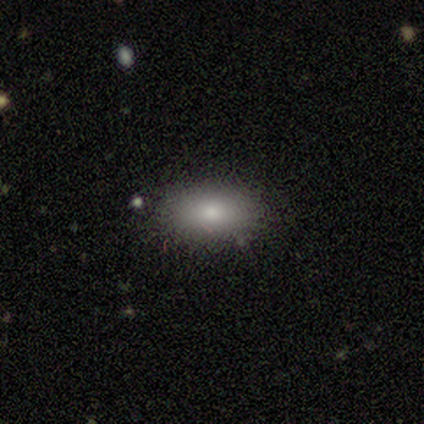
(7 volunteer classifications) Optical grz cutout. It shows a smooth galaxy with no disk features (86%) that is in between round and cigar-shaped (83%). Merging: none (100%).